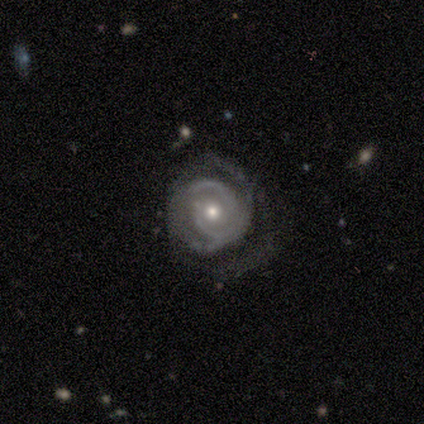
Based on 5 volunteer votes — Smooth or featured? featured or disk (80%)
Edge-on disk? no (75%)
Bar? no (100%)
Spiral arms? yes (100%)
Spiral winding? tight (33%, tied with medium and loose)
Spiral arm count? can't tell (67%)
Bulge size? moderate (67%)
Merging? none (100%)